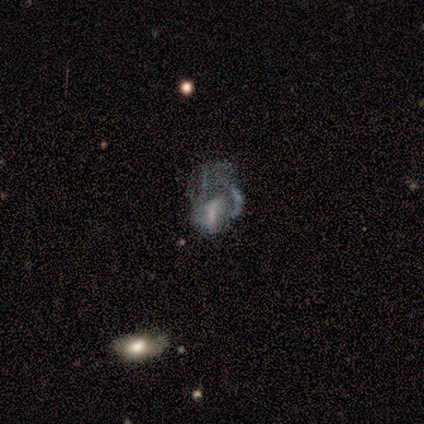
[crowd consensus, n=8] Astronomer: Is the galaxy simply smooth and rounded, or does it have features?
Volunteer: featured or disk — 75%.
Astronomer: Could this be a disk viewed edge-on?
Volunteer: no — 100%.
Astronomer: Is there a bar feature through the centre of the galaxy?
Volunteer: weak — 50% (runner-up: no, 33%).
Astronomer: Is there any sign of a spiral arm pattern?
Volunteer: yes — 50%, tied with no at 50%.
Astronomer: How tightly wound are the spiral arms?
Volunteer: medium — 67%.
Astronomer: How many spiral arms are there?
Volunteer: can't tell — 100%.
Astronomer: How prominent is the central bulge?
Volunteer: small — 67%.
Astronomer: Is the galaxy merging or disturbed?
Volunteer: major disturbance — 62%.